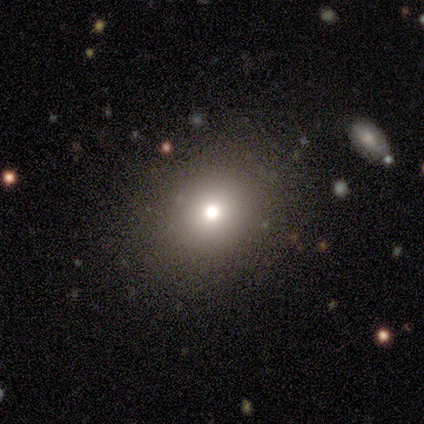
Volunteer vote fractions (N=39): This is likely a smooth galaxy (67%). How rounded: possibly round (54%). Merging: clearly none (84%).